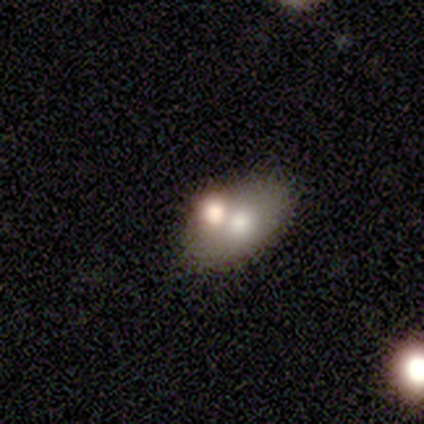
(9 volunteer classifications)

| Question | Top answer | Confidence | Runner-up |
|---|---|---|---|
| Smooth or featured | smooth | 100% | — |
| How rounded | in between | 100% | — |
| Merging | merger | 56% | none (33%) |